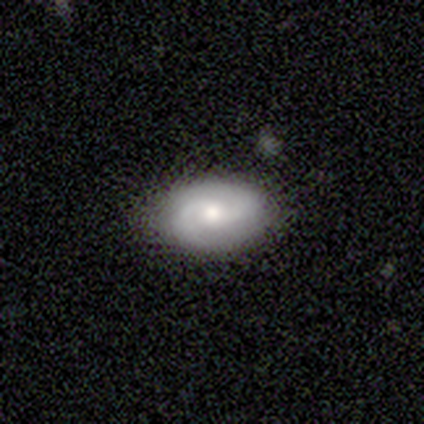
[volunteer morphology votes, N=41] Smooth or featured?
  - featured or disk: 59% *
  - smooth: 29%
  - star or artifact: 12%
Edge-on disk?
  - no: 92% *
  - yes: 8%
Bar?
  - no: 77% *
  - weak: 23%
  - strong: 0%
Spiral arms?
  - yes: 86% *
  - no: 14%
Spiral winding?
  - tight: 47% * (tied)
  - medium: 47% * (tied)
  - loose: 5%
Spiral arm count?
  - 2: 84% *
  - can't tell: 11%
  - 3: 5%
  - 1: 0%
  - 4: 0%
  - more than 4: 0%
Bulge size?
  - moderate: 77% *
  - small: 18%
  - dominant: 5%
  - large: 0%
  - none: 0%
Merging?
  - none: 78% *
  - minor disturbance: 14%
  - major disturbance: 6%
  - merger: 3%